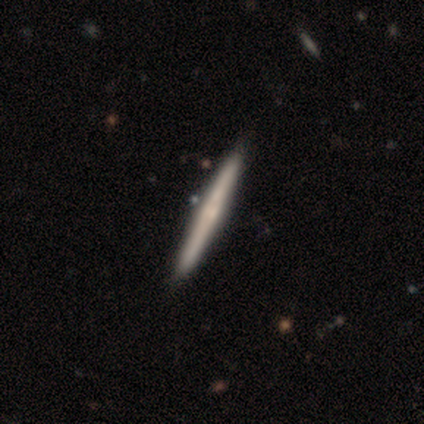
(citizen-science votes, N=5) Volunteers were most divided on "edge-on bulge": none: 75%, rounded: 25%, boxy: 0%. More confident: edge-on disk — yes (100%); merging — none (100%); smooth or featured — featured or disk (80%).